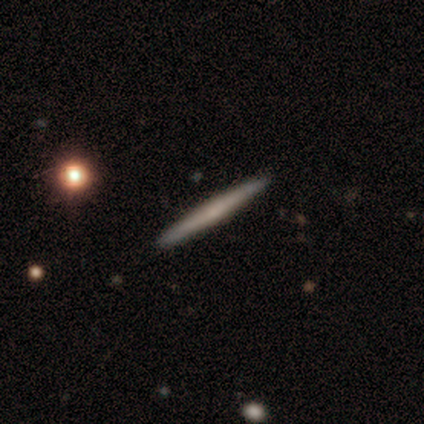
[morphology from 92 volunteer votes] Smooth or featured: featured or disk — 54% (smooth — 40%)
Edge-on disk: yes — 98% (no — 2%)
Edge-on bulge: none — 82% (rounded — 18%)
Merging: none — 94% (minor disturbance — 3%)